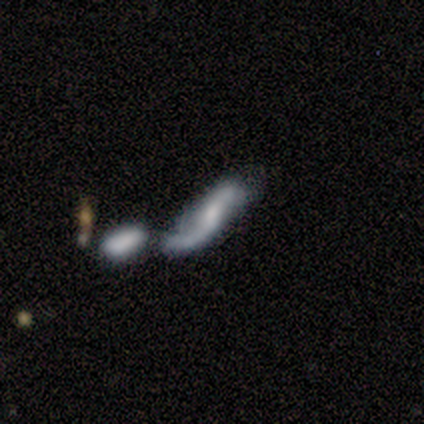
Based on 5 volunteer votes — A featured or disk galaxy (100%) with no bar (100%), 2 (100%) tight (50%, tied with loose) spiral arms (67%) and a small central bulge (67%).

Vote fractions:
- Smooth or featured? featured or disk: 100% / smooth: 0% / star or artifact: 0%
- Edge-on disk? no: 60% / yes: 40%
- Bar? no: 100% / strong: 0% / weak: 0%
- Spiral arms? yes: 67% / no: 33%
- Spiral winding? tight: 50% (tied) / loose: 50% (tied) / medium: 0%
- Spiral arm count? 2: 100% / 1: 0% / 3: 0% / 4: 0% / more than 4: 0% / can't tell: 0%
- Bulge size? small: 67% / moderate: 33% / dominant: 0% / large: 0% / none: 0%
- Merging? merger: 40% / none: 20% / minor disturbance: 20% / major disturbance: 20%